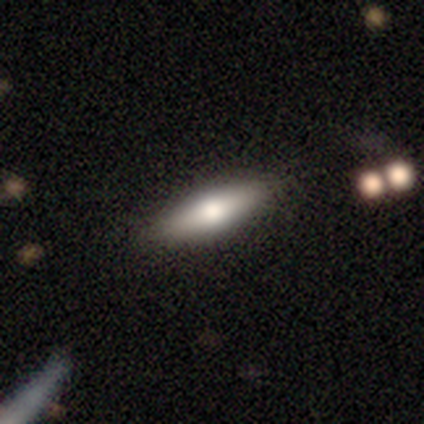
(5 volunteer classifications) smooth_or_featured: smooth (p=0.40) [tied with: featured or disk p=0.40]
how_rounded: in between (p=0.50) [tied with: cigar-shaped p=0.50]
merging: none (p=1.00)